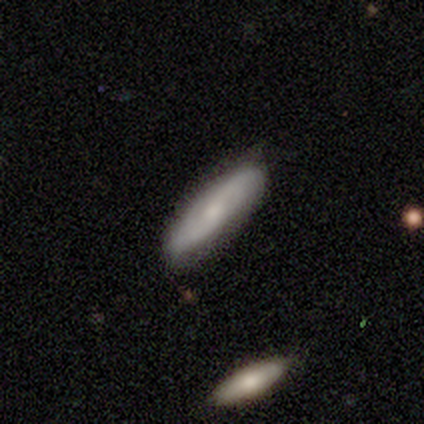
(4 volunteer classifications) Volunteers were most divided on "smooth or featured" (2-way tie): smooth: 50%, featured or disk: 50%, star or artifact: 0%; "how rounded" (2-way tie): in between: 50%, cigar-shaped: 50%, round: 0%. More confident: merging — none (100%).